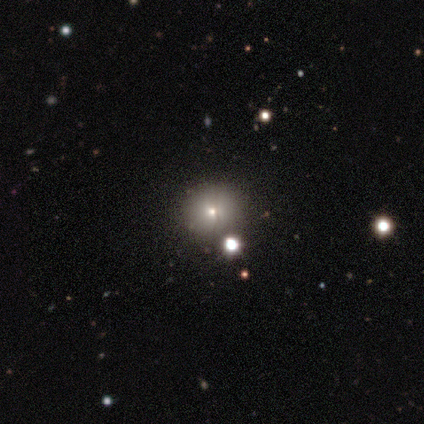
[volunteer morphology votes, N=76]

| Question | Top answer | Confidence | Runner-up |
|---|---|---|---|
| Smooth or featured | smooth | 62% | star or artifact (25%) |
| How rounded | round | 89% | in between (11%) |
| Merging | none | 44% | merger (9%) |